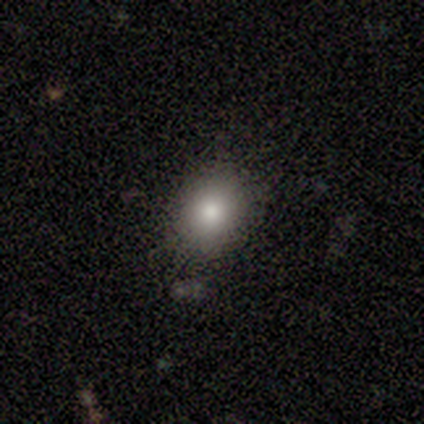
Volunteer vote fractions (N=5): Smooth or featured: smooth — 100%
How rounded: in between — 60% (round — 40%)
Merging: none — 100%